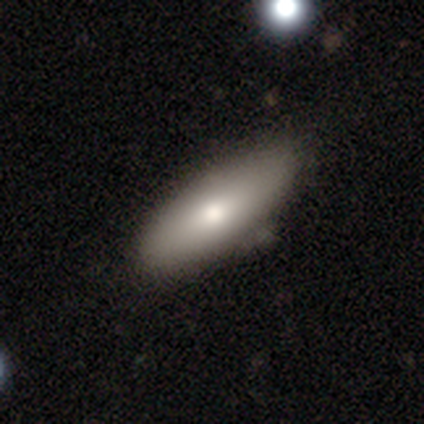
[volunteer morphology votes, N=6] Volunteers were most divided on "how rounded": cigar-shaped: 60%, in between: 40%, round: 0%. More confident: smooth or featured — smooth (83%); merging — none (60%).